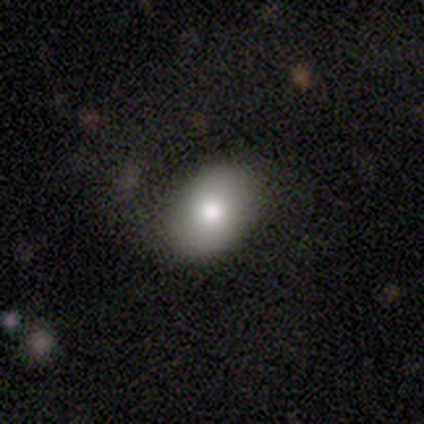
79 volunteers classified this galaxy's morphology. This is clearly a smooth galaxy (85%). How rounded: clearly in between (82%). Merging: likely none (75%).